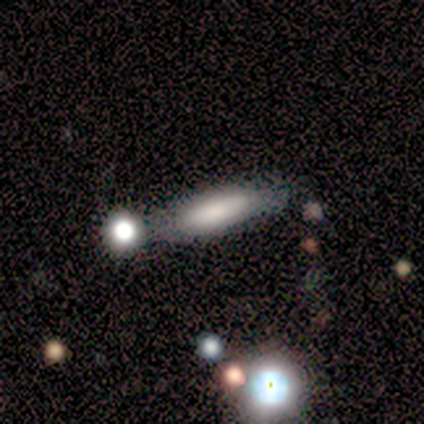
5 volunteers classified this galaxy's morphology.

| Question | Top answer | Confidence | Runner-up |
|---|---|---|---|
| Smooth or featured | smooth | 100% | — |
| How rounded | cigar-shaped | 100% | — |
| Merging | none | 100% | — |